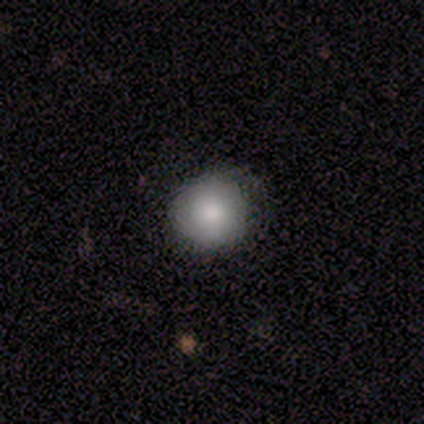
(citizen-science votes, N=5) Smooth or featured?
  - smooth: 80% *
  - featured or disk: 20%
  - star or artifact: 0%
How rounded?
  - round: 100% *
  - in between: 0%
  - cigar-shaped: 0%
Merging?
  - none: 60% *
  - minor disturbance: 40%
  - major disturbance: 0%
  - merger: 0%